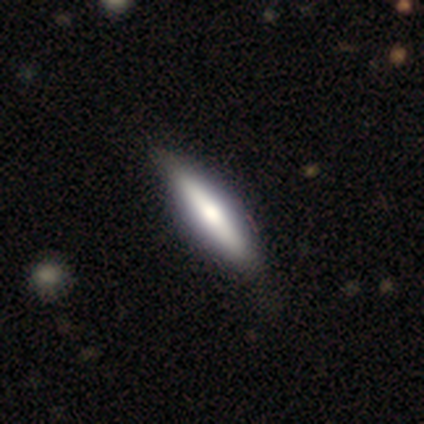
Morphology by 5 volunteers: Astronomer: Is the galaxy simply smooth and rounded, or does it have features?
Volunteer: smooth — 80%.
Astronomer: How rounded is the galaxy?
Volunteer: cigar-shaped — 100%.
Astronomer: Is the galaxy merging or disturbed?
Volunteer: none — 100%.